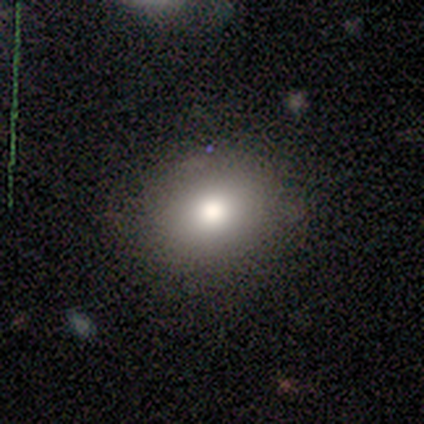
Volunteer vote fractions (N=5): Q: Smooth or featured?
A: smooth (80%); runner-up: featured or disk (20%)
Q: How rounded?
A: round (75%); runner-up: in between (25%)
Q: Merging?
A: none (100%)